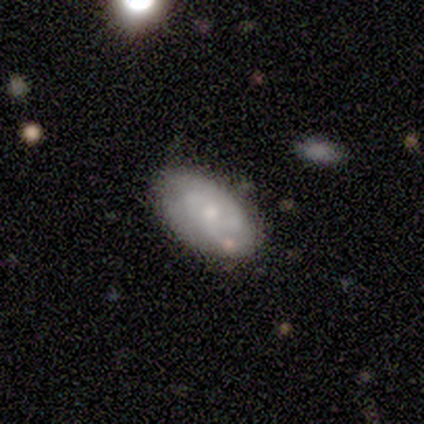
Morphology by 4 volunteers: This appears to be a smooth galaxy with no disk features (50%, tied with featured or disk) that is in between round and cigar-shaped (100%). Merging: minor disturbance (75%).